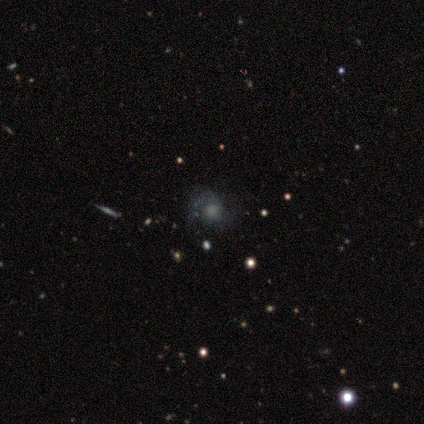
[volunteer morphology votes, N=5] This appears to be a featured or disk galaxy (60%) with a weak bar (50%, tied with no), 2 (100%) loose (100%) spiral arms (100%) and a large central bulge (50%, tied with small). Merging: minor disturbance (60%).